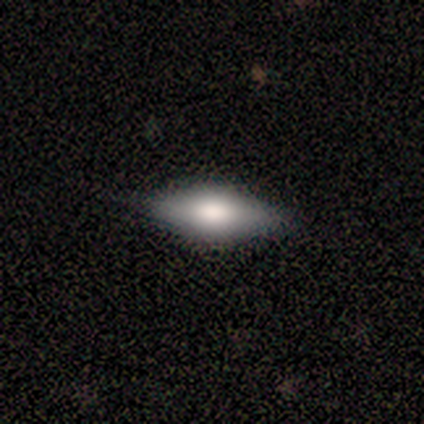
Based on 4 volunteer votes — smooth-or-featured: smooth: 75% | featured or disk: 25% | star or artifact: 0%
  how-rounded: in between: 67% | cigar-shaped: 33% | round: 0%
  merging: none: 100% | minor disturbance: 0% | major disturbance: 0% | merger: 0%